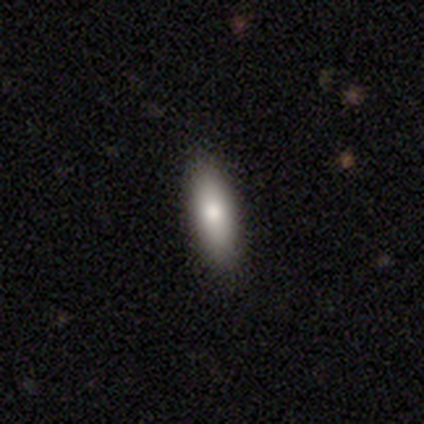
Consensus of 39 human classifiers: This appears to be a smooth galaxy with no disk features (72%) that is in between round and cigar-shaped (50%, tied with cigar-shaped). Merging: none (88%).